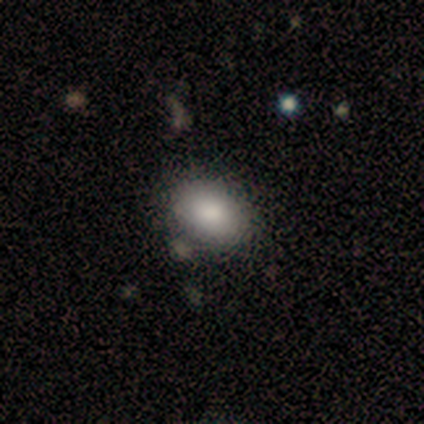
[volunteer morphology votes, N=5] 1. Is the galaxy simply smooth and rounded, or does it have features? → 60% smooth, 40% star or artifact, 0% featured or disk.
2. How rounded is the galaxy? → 100% in between, 0% round, 0% cigar-shaped.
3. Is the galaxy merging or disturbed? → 100% none, 0% minor disturbance, 0% major disturbance, 0% merger.